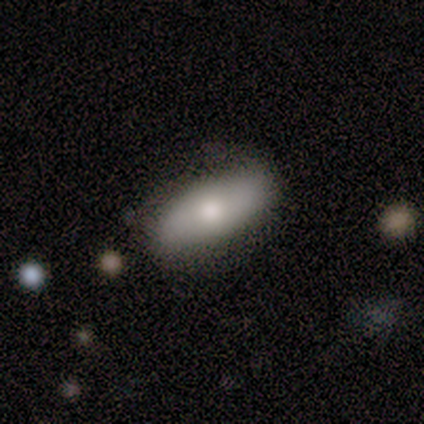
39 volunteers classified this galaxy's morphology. This is likely a smooth galaxy (69%). How rounded: likely in between (78%). Merging: likely none (74%).